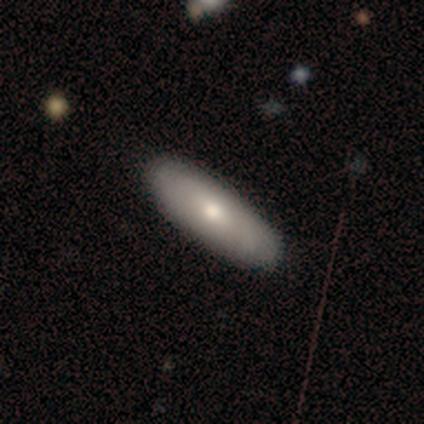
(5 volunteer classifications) Overall: smooth (80%). How rounded: in between (75%). Merging: none (100%).